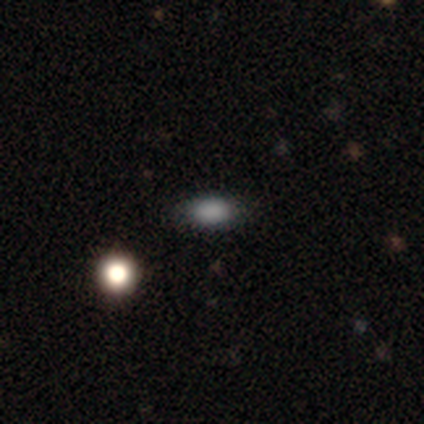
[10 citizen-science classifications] Smooth or featured?
  - smooth: 100% *
  - featured or disk: 0%
  - star or artifact: 0%
How rounded?
  - in between: 80% *
  - round: 20%
  - cigar-shaped: 0%
Merging?
  - none: 70% *
  - minor disturbance: 30%
  - major disturbance: 0%
  - merger: 0%